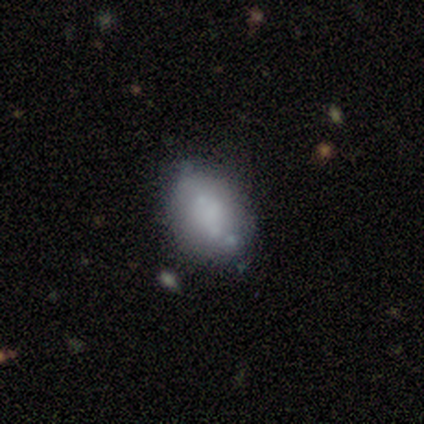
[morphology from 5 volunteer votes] Volunteers were most divided on "bar": no: 50%, strong: 25%, weak: 25%. More confident: edge-on disk — no (100%); spiral arms — no (100%); smooth or featured — featured or disk (80%); bulge size — moderate (75%); merging — none (60%).